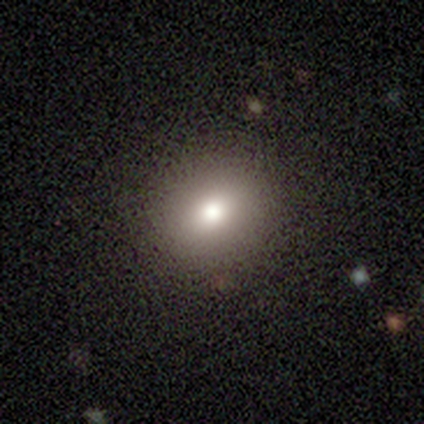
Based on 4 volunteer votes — Q: Smooth or featured?
A: smooth (50%); runner-up: featured or disk (25%)
Q: How rounded?
A: round (100%)
Q: Merging?
A: none (100%)